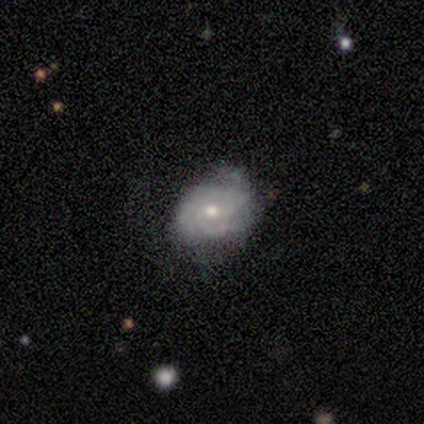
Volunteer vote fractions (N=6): This is likely a featured or disk galaxy (67%). It is clearly not viewed edge-on (100%). Bar: likely no (75%). Spiral arm pattern: clearly yes (100%). Spiral arm count: possibly 3 (50%). Spiral winding: clearly tight (100%). Central bulge: clearly moderate (100%). Merging: clearly none (80%).